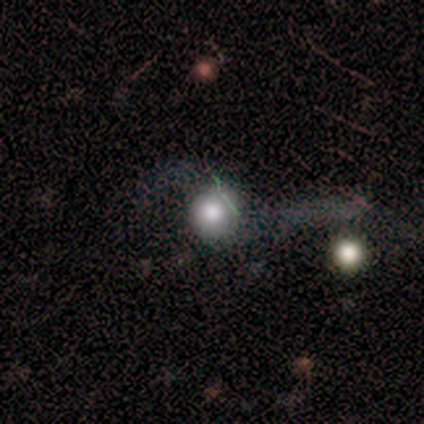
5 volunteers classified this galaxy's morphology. This appears to be a smooth galaxy with no disk features (60%) that is round (100%). Merging: none (75%).